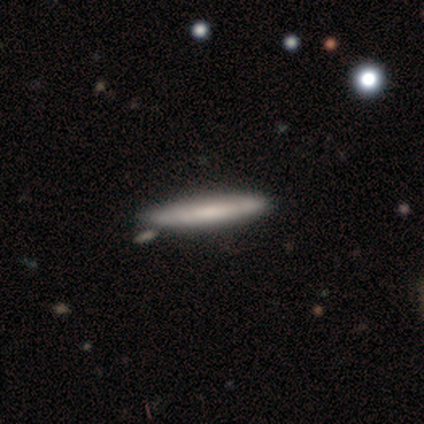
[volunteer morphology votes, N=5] Smooth or featured? featured or disk (60%)
Edge-on disk? yes (100%)
Edge-on bulge? boxy (67%)
Merging? none (100%)